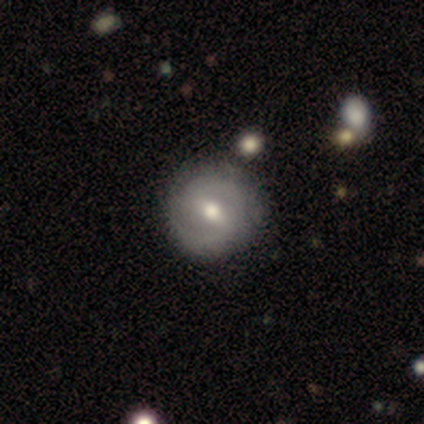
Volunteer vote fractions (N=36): Smooth or featured?
  - featured or disk: 83% *
  - smooth: 17%
  - star or artifact: 0%
Edge-on disk?
  - no: 100% *
  - yes: 0%
Bar?
  - weak: 60% *
  - strong: 37%
  - no: 3%
Spiral arms?
  - yes: 87% *
  - no: 13%
Spiral winding?
  - medium: 46% *
  - tight: 42%
  - loose: 12%
Spiral arm count?
  - 2: 88% *
  - can't tell: 8%
  - 1: 4%
  - 3: 0%
  - 4: 0%
  - more than 4: 0%
Bulge size?
  - moderate: 87% *
  - large: 10%
  - small: 3%
  - dominant: 0%
  - none: 0%
Merging?
  - none: 47% *
  - merger: 6%
  - minor disturbance: 3%
  - major disturbance: 3%